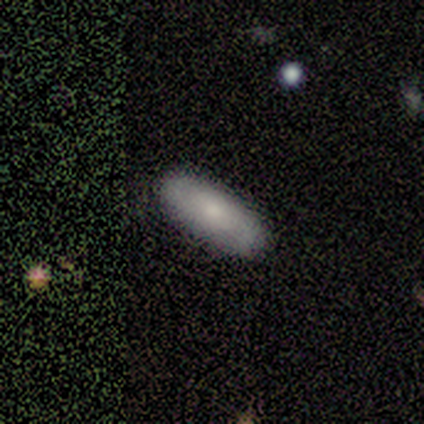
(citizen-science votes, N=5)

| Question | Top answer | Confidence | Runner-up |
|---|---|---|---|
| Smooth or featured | smooth | 100% | — |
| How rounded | cigar-shaped | 60% | in between (40%) |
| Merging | none | 100% | — |